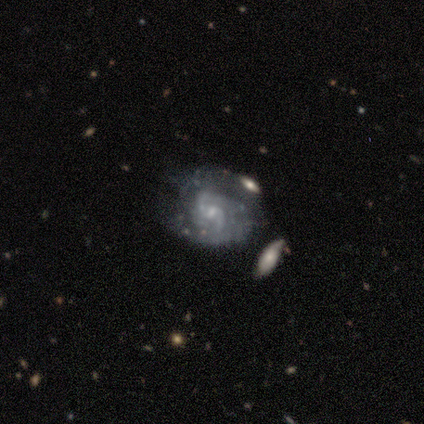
A featured or disk galaxy (92%) with no bar (49%), 2 (72%) medium (42%) spiral arms (97%) and a small central bulge (68%). Merging: none (59%).